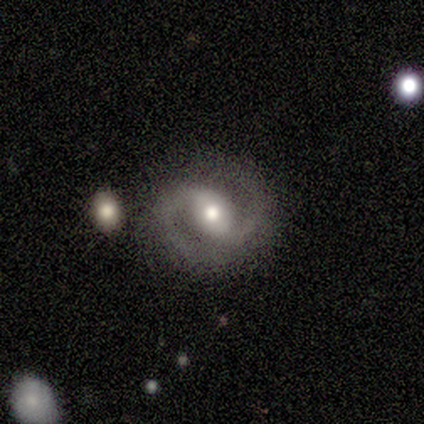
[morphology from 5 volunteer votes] Smooth or featured: featured or disk — 100%
Edge-on disk: no — 100%
Bar: no — 60% (weak — 40%)
Spiral arms: yes — 100%
Spiral winding: loose — 60% (tight — 20%)
Spiral arm count: 2 — 100%
Bulge size: moderate — 60% (small — 40%)
Merging: none — 100%